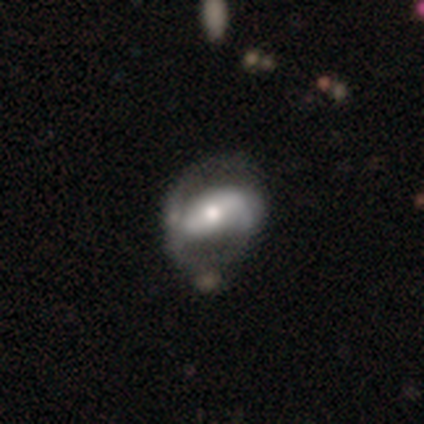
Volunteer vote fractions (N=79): smooth-or-featured: featured or disk: 78% | smooth: 18% | star or artifact: 4%
  disk-edge-on: no: 95% | yes: 5%
    bar: strong: 54% | no: 27% | weak: 19%
    has-spiral-arms: yes: 78% | no: 22%
      spiral-winding: loose: 57% | medium: 26% | tight: 17%
      spiral-arm-count: 2: 76% | 1: 11% | can't tell: 9% | 3: 4% | 4: 0% | more than 4: 0%
    bulge-size: moderate: 66% | small: 22% | large: 12% | dominant: 0% | none: 0%
  merging: none: 30% | minor disturbance: 13% | major disturbance: 8% | merger: 3%